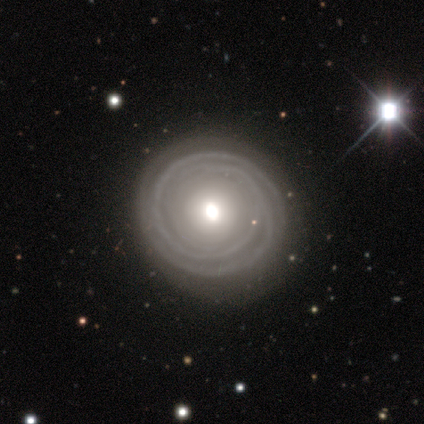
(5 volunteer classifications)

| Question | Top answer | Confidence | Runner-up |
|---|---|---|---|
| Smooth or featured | featured or disk | 80% | smooth (20%) |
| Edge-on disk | no | 100% | — |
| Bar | no | 100% | — |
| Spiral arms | yes | 100% | — |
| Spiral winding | tight | 100% | — |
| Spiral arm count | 2 | 75% | can't tell (25%) |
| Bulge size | moderate | 75% | small (25%) |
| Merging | none | 80% | minor disturbance (20%) |